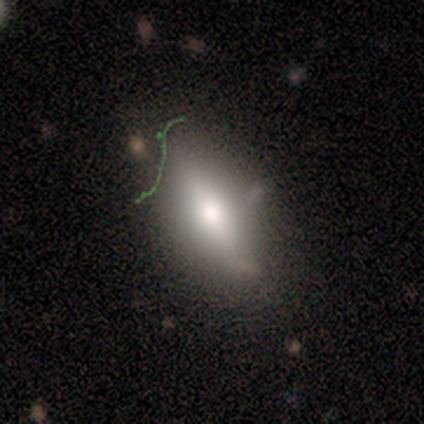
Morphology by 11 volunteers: A smooth galaxy with no disk features (73%) that is in between round and cigar-shaped (62%).

Vote fractions:
- Smooth or featured? smooth: 73% / star or artifact: 18% / featured or disk: 9%
- How rounded? in between: 62% / cigar-shaped: 25% / round: 12%
- Merging? none: 78% / minor disturbance: 22% / major disturbance: 0% / merger: 0%